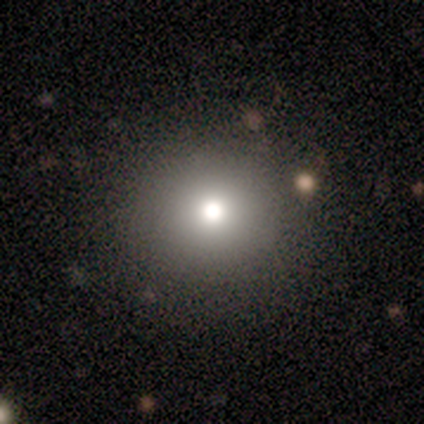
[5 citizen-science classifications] A smooth galaxy with no disk features (100%) that is round (80%). Merging: none (80%).